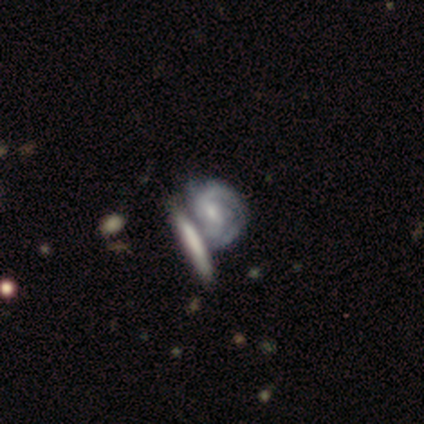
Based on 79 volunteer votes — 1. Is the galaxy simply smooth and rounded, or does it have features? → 84% featured or disk, 11% smooth, 5% star or artifact.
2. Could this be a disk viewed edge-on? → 94% no, 6% yes.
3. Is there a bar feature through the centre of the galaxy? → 58% weak, 34% no, 8% strong.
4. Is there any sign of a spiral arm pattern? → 94% yes, 6% no.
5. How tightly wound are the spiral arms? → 47% tight, 45% medium, 9% loose.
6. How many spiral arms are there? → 45% 2 (tied), 45% can't tell (tied), 5% 1, 3% 3, 2% 4, 0% more than 4.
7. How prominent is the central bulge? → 53% small, 35% moderate, 10% none, 2% dominant, 0% large.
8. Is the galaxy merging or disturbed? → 55% merger, 19% none, 9% minor disturbance, 3% major disturbance.